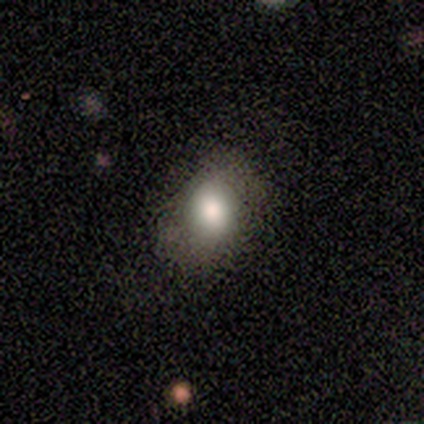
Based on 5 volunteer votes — Overall: smooth (80%). How rounded: round (50%, tied with in between). Merging: none (60%; minor disturbance 20%).